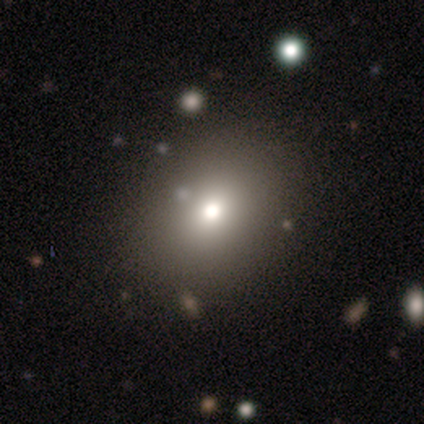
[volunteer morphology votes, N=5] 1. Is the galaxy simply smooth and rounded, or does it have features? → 80% smooth, 20% featured or disk, 0% star or artifact.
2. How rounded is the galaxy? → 50% round (tied), 50% in between (tied), 0% cigar-shaped.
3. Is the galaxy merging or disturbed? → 60% none, 20% minor disturbance, 20% major disturbance, 0% merger.